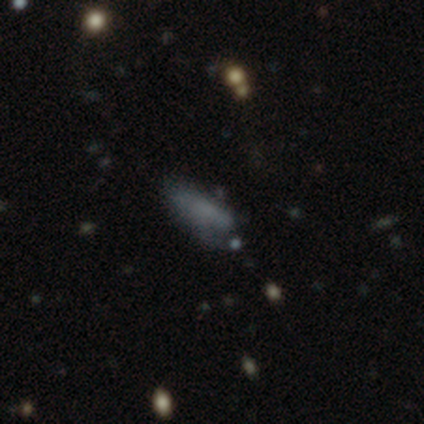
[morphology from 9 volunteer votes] Smooth or featured? smooth (67%)
How rounded? in between (83%)
Merging? none (50%)